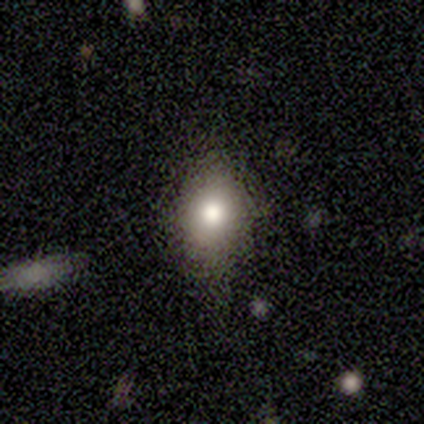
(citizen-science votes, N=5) This appears to be a smooth galaxy with no disk features (80%) that is in between round and cigar-shaped (100%). Merging: none (80%).